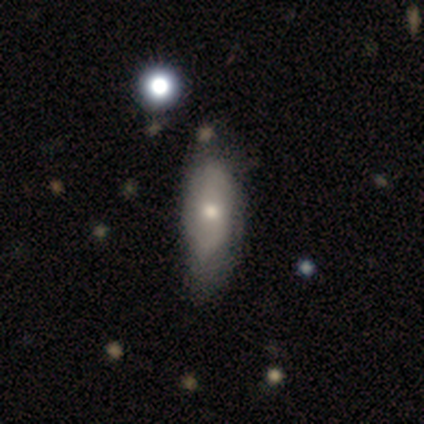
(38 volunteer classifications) This appears to be a featured or disk galaxy (50%) with no bar (100%), no spiral arms (54%) and a moderate central bulge (54%). Merging: none (31%).